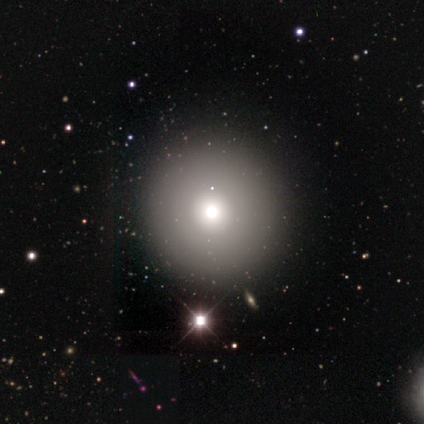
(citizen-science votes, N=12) This is likely a smooth galaxy (67%). How rounded: clearly round (100%). Merging: clearly none (100%).